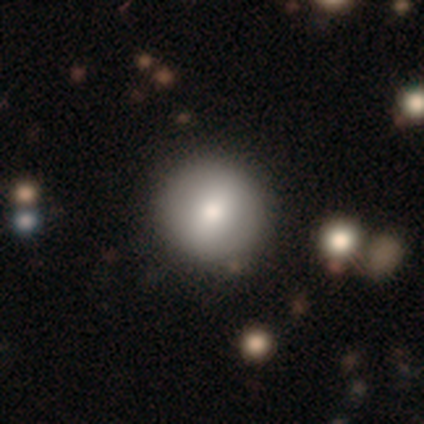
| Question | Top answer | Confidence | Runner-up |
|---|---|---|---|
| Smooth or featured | smooth | 40% | tied: featured or disk (40%) |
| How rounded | round | 100% | — |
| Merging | none | 100% | — |